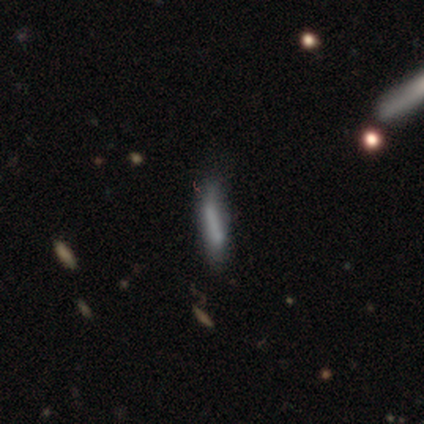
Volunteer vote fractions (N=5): Q: Smooth or featured?
A: smooth (80%); runner-up: featured or disk (20%)
Q: How rounded?
A: cigar-shaped (75%); runner-up: in between (25%)
Q: Merging?
A: none (60%); runner-up: minor disturbance (20%)